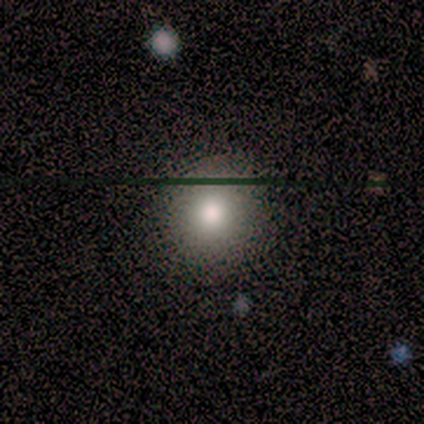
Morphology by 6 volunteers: type=smooth (83%); roundness=round (100%); merging=none (60%).